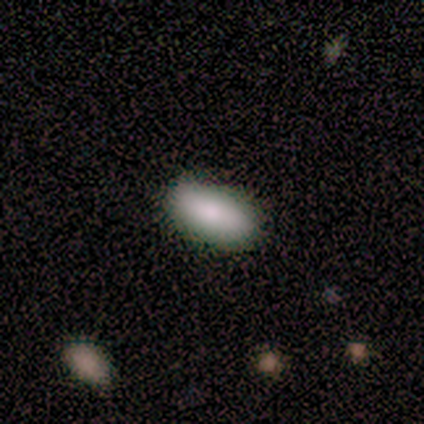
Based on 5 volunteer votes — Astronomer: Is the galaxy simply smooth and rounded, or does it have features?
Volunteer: smooth — 100%.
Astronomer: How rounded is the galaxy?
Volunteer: in between — 100%.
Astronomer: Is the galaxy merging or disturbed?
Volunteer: none — 60% (runner-up: minor disturbance, 40%).